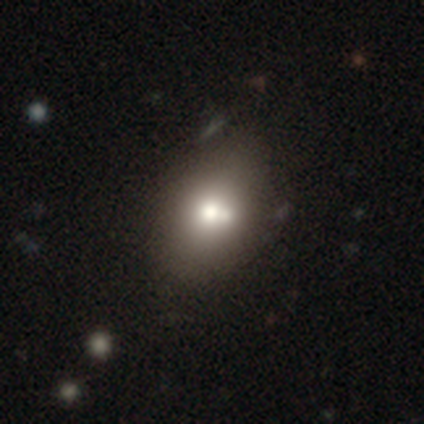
This is possibly a smooth galaxy (50%, tied with featured or disk). How rounded: possibly round (50%, tied with in between). Merging: clearly none (100%).